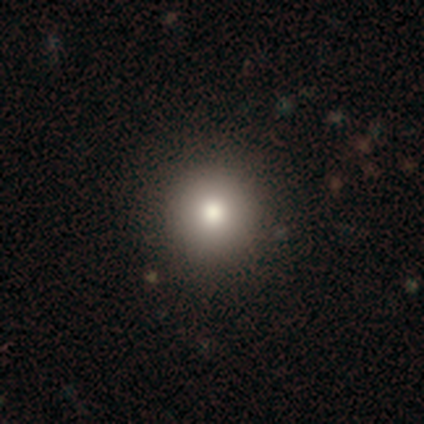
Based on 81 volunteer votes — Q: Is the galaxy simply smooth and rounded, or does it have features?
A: smooth — 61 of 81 (75%).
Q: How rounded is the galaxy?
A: round — 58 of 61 (95%).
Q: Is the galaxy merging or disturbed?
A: none — 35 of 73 (48%).